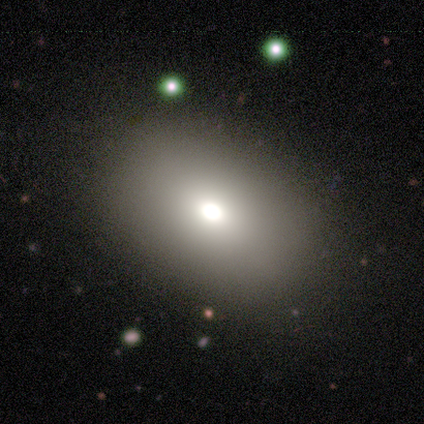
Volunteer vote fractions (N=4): Morphology: type=smooth (75%); roundness=in between (67%); merging=none (67%).